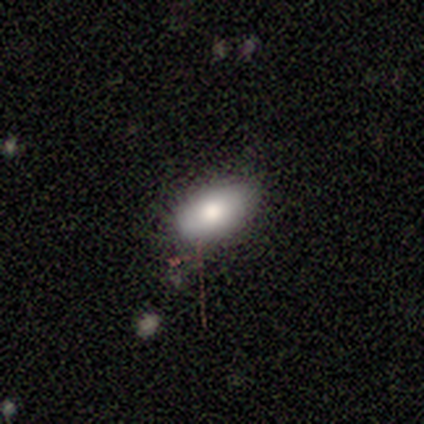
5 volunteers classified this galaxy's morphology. smooth-or-featured: smooth: 80% | star or artifact: 20% | featured or disk: 0%
  how-rounded: in between: 75% | round: 25% | cigar-shaped: 0%
  merging: none: 75% | minor disturbance: 25% | major disturbance: 0% | merger: 0%